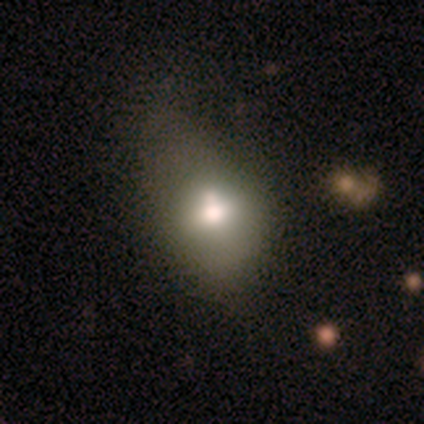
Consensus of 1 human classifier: Morphology: type=featured or disk (100%); edge-on=no (100%); bar=no (100%); spiral arms=no (100%); bulge=large (100%); merging=merger (100%).